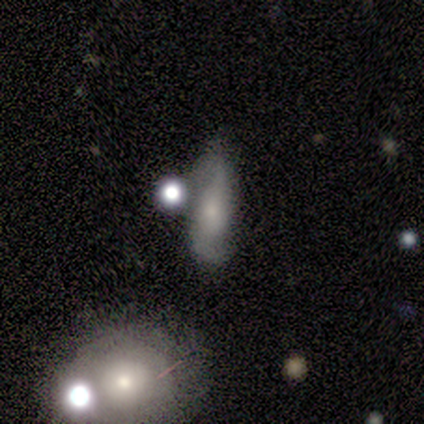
Morphology: type=smooth (50%, tied with featured or disk); roundness=in between (100%); merging=none (100%).